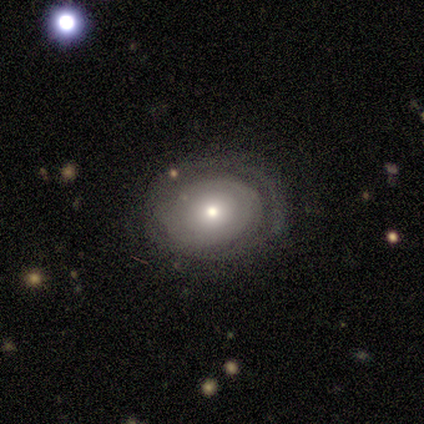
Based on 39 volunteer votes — Overall: featured or disk (64%; smooth 31%). Edge-on disk: no (100%). Bar: no (84%). Spiral arms: yes (52%; no 48%). Spiral arm count: can't tell (69%). Spiral winding: tight (69%). Bulge size: small (64%; moderate 28%). Merging: none (78%).